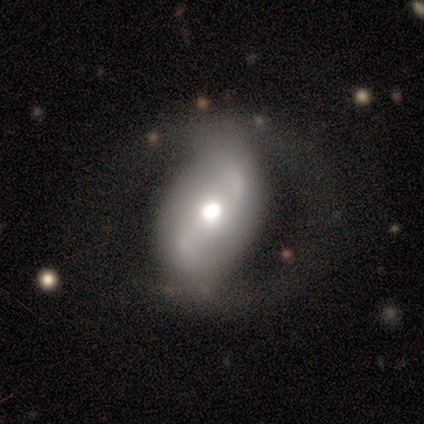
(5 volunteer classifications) Smooth or featured?
  - featured or disk: 80% *
  - smooth: 20%
  - star or artifact: 0%
Edge-on disk?
  - no: 100% *
  - yes: 0%
Bar?
  - no: 75% *
  - weak: 25%
  - strong: 0%
Spiral arms?
  - yes: 100% *
  - no: 0%
Spiral winding?
  - loose: 75% *
  - tight: 25%
  - medium: 0%
Spiral arm count?
  - 2: 100% *
  - 1: 0%
  - 3: 0%
  - 4: 0%
  - more than 4: 0%
  - can't tell: 0%
Bulge size?
  - moderate: 75% *
  - large: 25%
  - dominant: 0%
  - small: 0%
  - none: 0%
Merging?
  - none: 60% *
  - major disturbance: 40%
  - minor disturbance: 0%
  - merger: 0%